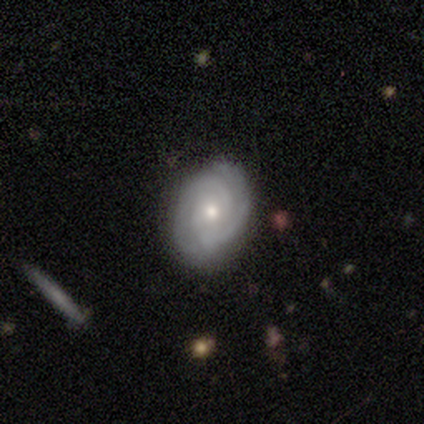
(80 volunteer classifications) Volunteers were most divided on "bulge size": small: 56%, moderate: 38%, none: 3%, dominant: 1%, large: 1%. Remaining: edge-on disk — no (99%); spiral arms — yes (95%); smooth or featured — featured or disk (92%); bar — no (79%); spiral winding — tight (67%); spiral arm count — 2 (61%); merging — none (42%).